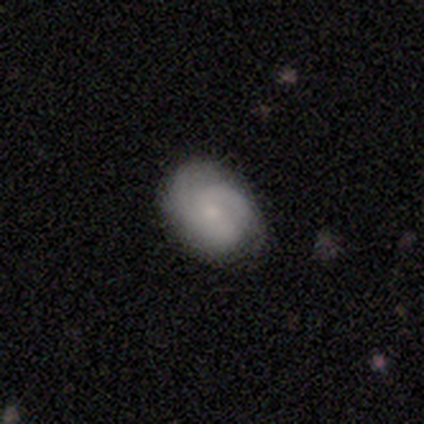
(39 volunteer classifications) Smooth or featured: featured or disk — 56% (smooth — 41%)
Edge-on disk: no — 91% (yes — 9%)
Bar: no — 60% (weak — 40%)
Spiral arms: yes — 100%
Spiral winding: tight — 50% (medium — 30%)
Spiral arm count: 2 — 40% (tied with 3 — 40%)
Bulge size: small — 60% (moderate — 30%)
Merging: none — 74% (minor disturbance — 18%)